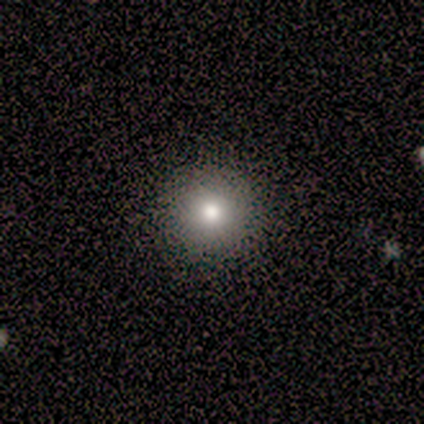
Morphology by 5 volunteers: type=smooth (80%); roundness=round (100%); merging=none (100%).